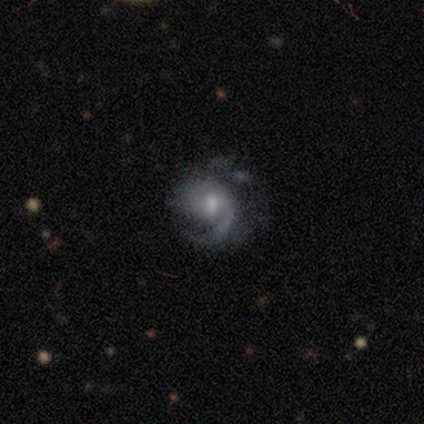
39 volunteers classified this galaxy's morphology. smooth_or_featured: featured or disk (p=0.92) [alt: smooth p=0.05]
disk_edge_on: no (p=1.00)
bar: no (p=0.64) [alt: weak p=0.36]
has_spiral_arms: yes (p=0.97) [alt: no p=0.03]
spiral_winding: medium (p=0.46) [alt: tight p=0.43]
spiral_arm_count: 1 (p=0.63) [alt: 2 p=0.20]
bulge_size: moderate (p=0.56) [alt: small p=0.36]
merging: none (p=0.45) [alt: minor disturbance p=0.34]